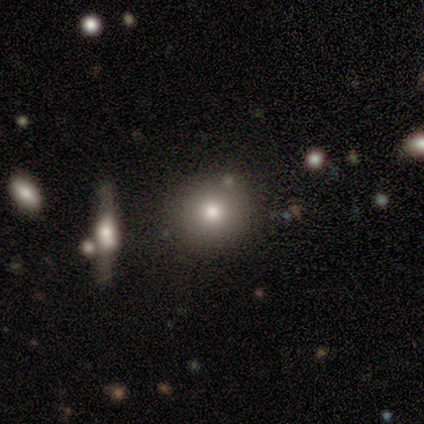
Morphology: type=smooth (100%); roundness=round (100%); merging=none (80%).